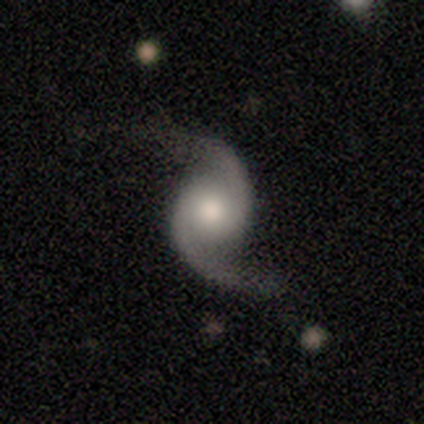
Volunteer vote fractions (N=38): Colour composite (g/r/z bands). It shows a featured or disk galaxy (95%) with no bar (83%), 2 (97%) loose (47%) spiral arms (100%) and a moderate central bulge (50%). Merging: none (75%).